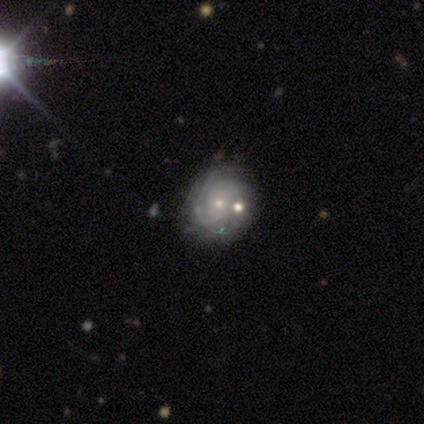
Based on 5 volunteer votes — Volunteers were most divided on "smooth or featured": featured or disk: 60%, star or artifact: 40%, smooth: 0%. More confident: edge-on disk — no (100%); spiral arms — yes (100%); spiral winding — tight (100%); merging — none (100%); bar — no (67%); spiral arm count — 4 (67%); bulge size — small (67%).